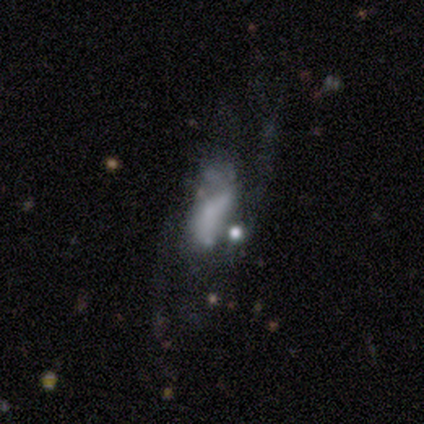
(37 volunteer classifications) Smooth or featured: featured or disk — 57% (smooth — 27%)
Edge-on disk: no — 90% (yes — 10%)
Bar: no — 74% (weak — 16%)
Spiral arms: yes — 53% (no — 47%)
Spiral winding: medium — 40% (tied with loose — 40%)
Spiral arm count: 2 — 50% (can't tell — 40%)
Bulge size: none — 63% (moderate — 21%)
Merging: none — 39% (major disturbance — 35%)